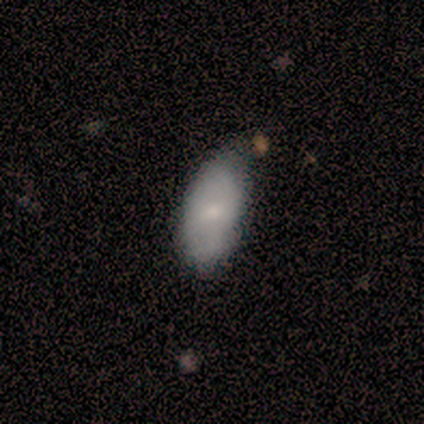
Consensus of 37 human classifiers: Overall: smooth (78%). How rounded: in between (97%). Merging: none (39%; minor disturbance 19%).